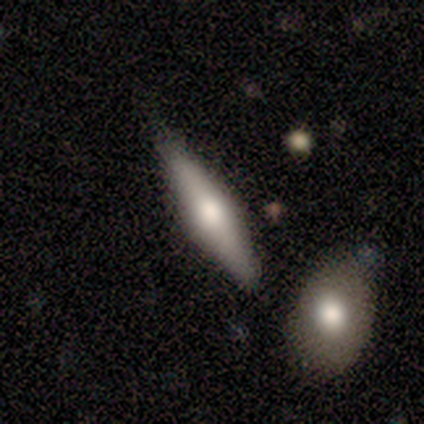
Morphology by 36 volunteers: Overall: featured or disk (67%; smooth 28%). Edge-on disk: yes (96%). Edge-on bulge: rounded (87%). Merging: none (71%).